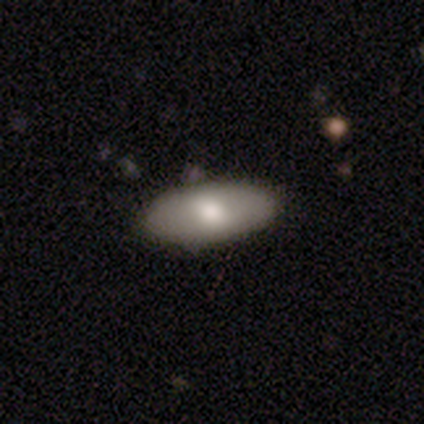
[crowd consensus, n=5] A smooth galaxy with no disk features (100%) that is in between round and cigar-shaped (80%). Merging: none (100%).